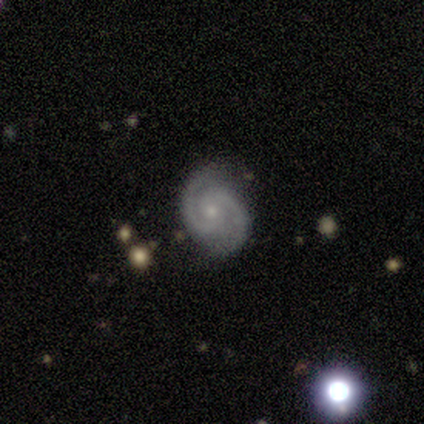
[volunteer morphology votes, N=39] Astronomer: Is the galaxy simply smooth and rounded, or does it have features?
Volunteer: featured or disk — 92%.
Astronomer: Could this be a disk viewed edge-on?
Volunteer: no — 97%.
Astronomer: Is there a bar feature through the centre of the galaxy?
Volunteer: no — 49% (runner-up: weak, 40%).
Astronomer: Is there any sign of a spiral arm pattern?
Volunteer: yes — 100%.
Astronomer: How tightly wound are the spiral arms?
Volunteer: medium — 49% (runner-up: tight, 37%).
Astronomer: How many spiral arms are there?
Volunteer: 2 — 94%.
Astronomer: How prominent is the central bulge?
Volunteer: small — 80%.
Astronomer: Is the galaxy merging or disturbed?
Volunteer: none — 86%.